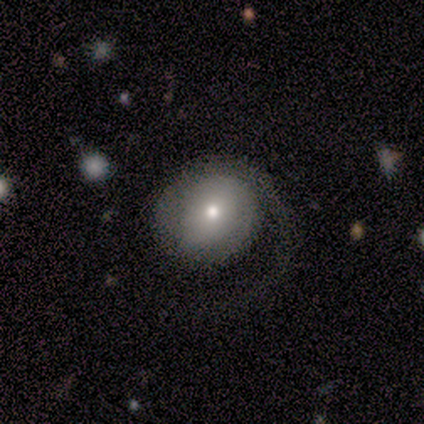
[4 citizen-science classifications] smooth_or_featured: featured or disk (p=0.75) [alt: smooth p=0.25]
disk_edge_on: no (p=1.00)
bar: no (p=1.00)
has_spiral_arms: yes (p=1.00)
spiral_winding: medium (p=0.67) [alt: tight p=0.33]
spiral_arm_count: 1 (p=0.33) [tied with: 2 p=0.33, can't tell p=0.33]
bulge_size: small (p=1.00)
merging: major disturbance (p=0.50) [alt: none p=0.25]